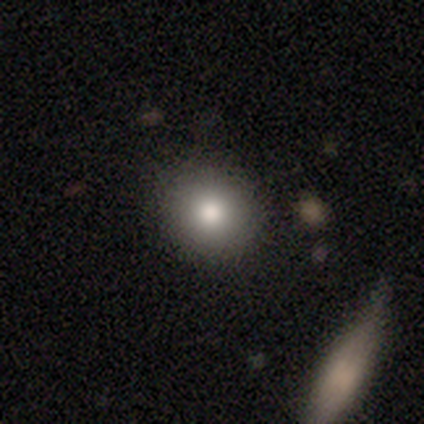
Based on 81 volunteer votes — This is likely a smooth galaxy (74%). How rounded: clearly round (90%). Merging: clearly none (94%).